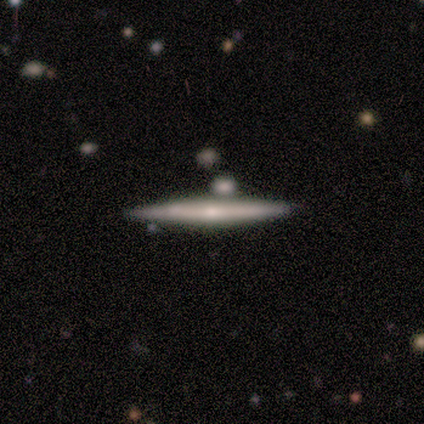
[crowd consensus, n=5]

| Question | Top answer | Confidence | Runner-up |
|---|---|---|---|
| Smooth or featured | featured or disk | 80% | smooth (20%) |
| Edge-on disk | yes | 100% | — |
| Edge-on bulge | none | 100% | — |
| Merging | none | 60% | minor disturbance (40%) |